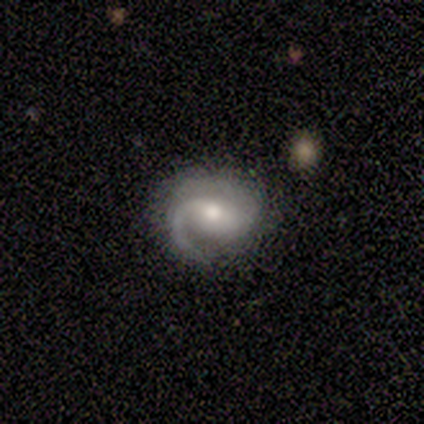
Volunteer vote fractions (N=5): Overall: featured or disk (80%). Edge-on disk: no (100%). Bar: weak (75%). Spiral arms: yes (100%). Spiral arm count: 1 (50%, tied with 2). Spiral winding: medium (50%, tied with loose). Bulge size: moderate (50%, tied with small). Merging: none (100%).